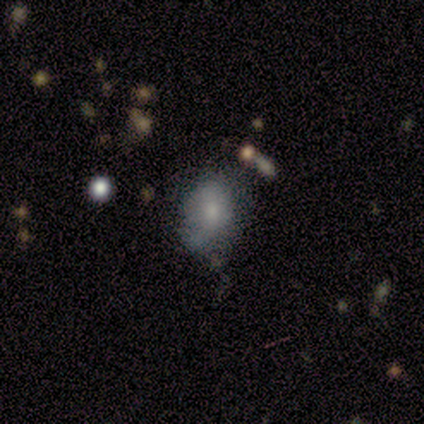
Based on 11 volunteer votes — Smooth or featured: smooth — 55% (featured or disk — 36%)
How rounded: in between — 100%
Merging: none — 70% (minor disturbance — 20%)